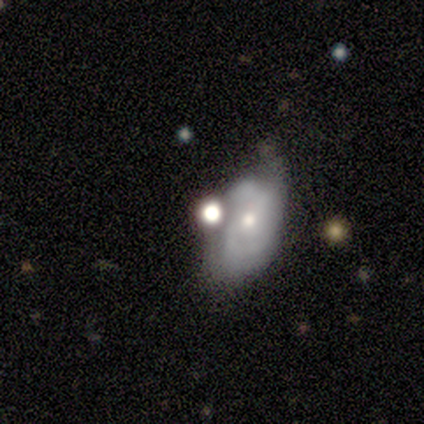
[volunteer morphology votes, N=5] Smooth or featured: featured or disk — 60% (smooth — 40%)
Edge-on disk: no — 100%
Bar: no — 67% (weak — 33%)
Spiral arms: yes — 100%
Spiral winding: medium — 67% (tight — 33%)
Spiral arm count: 2 — 100%
Bulge size: moderate — 67% (small — 33%)
Merging: none — 40% (minor disturbance — 20%)